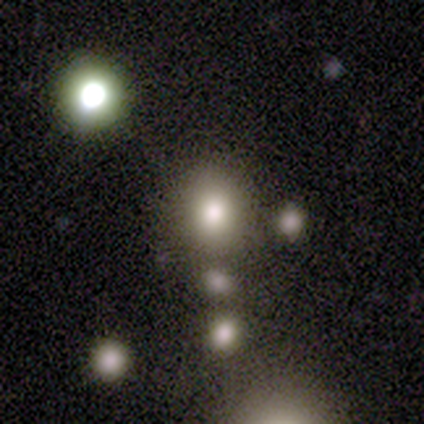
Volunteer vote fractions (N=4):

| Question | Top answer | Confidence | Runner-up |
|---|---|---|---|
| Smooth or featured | smooth | 50% | tied: star or artifact (50%) |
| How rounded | round | 100% | — |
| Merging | none | 50% | tied: merger (50%) |